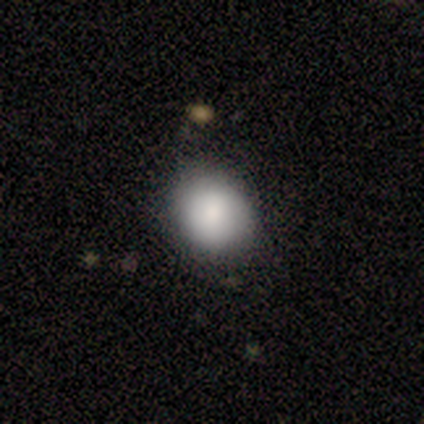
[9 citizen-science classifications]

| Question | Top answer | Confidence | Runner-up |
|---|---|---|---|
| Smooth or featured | smooth | 100% | — |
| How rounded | round | 56% | in between (44%) |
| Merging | none | 89% | minor disturbance (11%) |